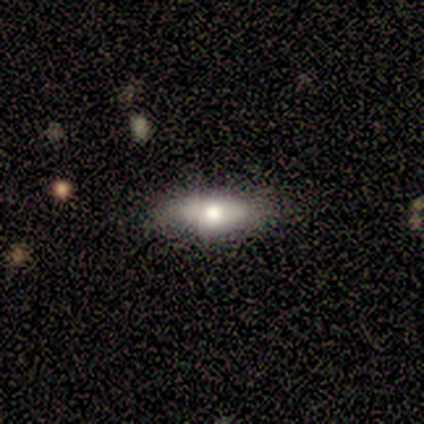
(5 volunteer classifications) Smooth or featured?
  - smooth: 80% *
  - featured or disk: 20%
  - star or artifact: 0%
How rounded?
  - in between: 75% *
  - cigar-shaped: 25%
  - round: 0%
Merging?
  - none: 100% *
  - minor disturbance: 0%
  - major disturbance: 0%
  - merger: 0%